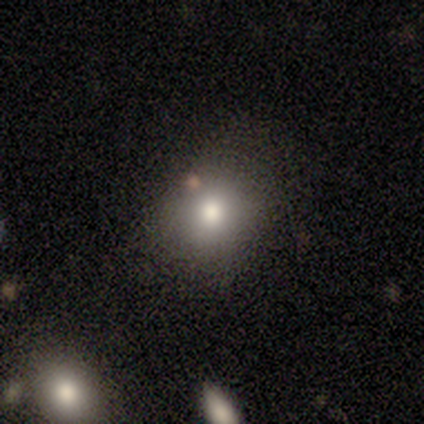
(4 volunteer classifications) Smooth or featured? 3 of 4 (75%) said smooth. How rounded? 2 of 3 (67%) said in between. Merging? 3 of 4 (75%) said none.